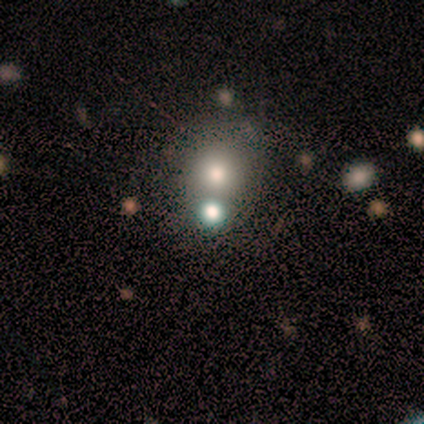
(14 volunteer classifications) smooth 43% (tied), star or artifact 43% (tied), featured or disk 14%. Down the decision tree: how rounded — round (83%); merging — none (50%, tied with merger).